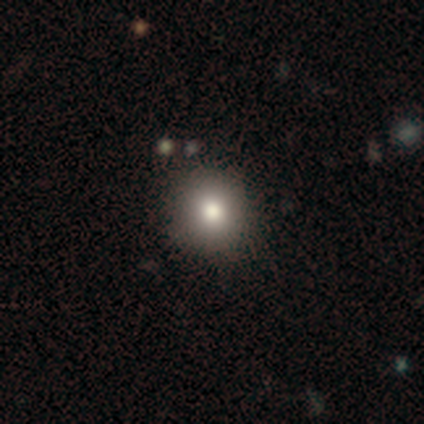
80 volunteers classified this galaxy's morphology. Overall: smooth (75%). How rounded: round (90%). Merging: none (47%).